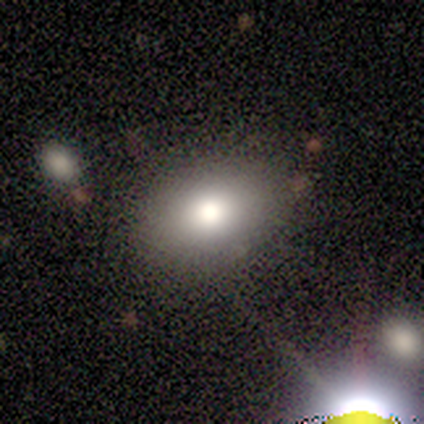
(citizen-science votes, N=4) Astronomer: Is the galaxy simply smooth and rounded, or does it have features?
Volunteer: smooth — 75%.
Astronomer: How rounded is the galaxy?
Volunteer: in between — 100%.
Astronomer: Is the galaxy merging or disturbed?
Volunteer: none — 100%.